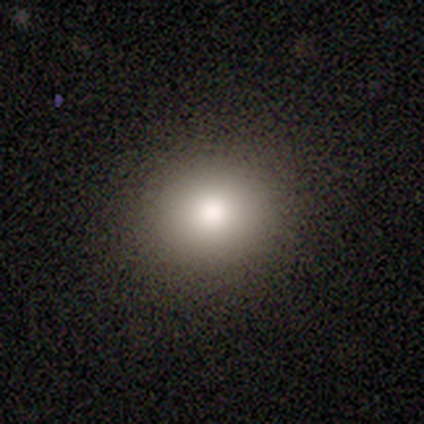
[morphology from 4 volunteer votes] smooth_or_featured: smooth (p=1.00)
how_rounded: round (p=1.00)
merging: none (p=1.00)